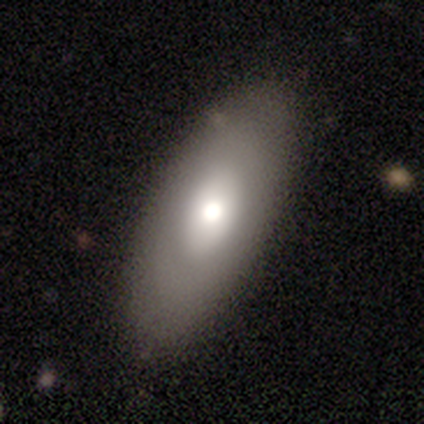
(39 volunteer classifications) Smooth or featured: smooth — 69% (featured or disk — 31%)
How rounded: in between — 85% (cigar-shaped — 11%)
Merging: none — 77% (minor disturbance — 3%)